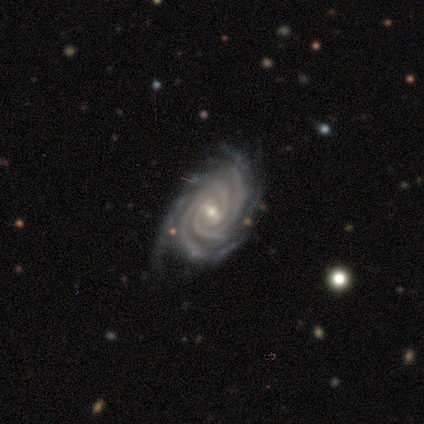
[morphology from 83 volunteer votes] A featured or disk galaxy (98%) with a weak bar (53%), 3 (33%) tight (88%) spiral arms (99%) and a small central bulge (74%). Merging: none (73%).